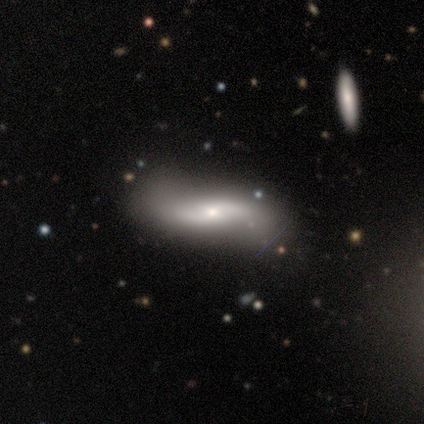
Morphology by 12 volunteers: Smooth or featured? 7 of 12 (58%) said featured or disk. Edge-on disk? 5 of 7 (71%) said no. Bar? 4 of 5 (80%) said no. Spiral arms? 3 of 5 (60%) said yes. Spiral winding? 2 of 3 (67%) said loose. Spiral arm count? 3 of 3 (100%) said 2. Bulge size? 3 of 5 (60%) said small. Merging? 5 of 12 (42%) said none.